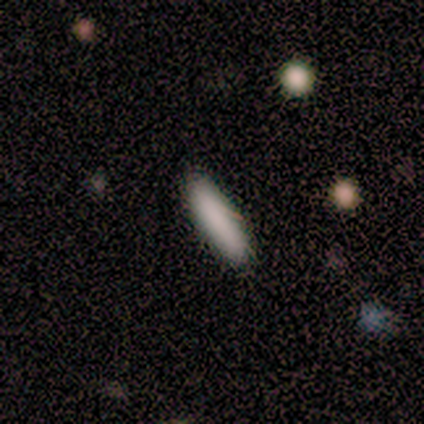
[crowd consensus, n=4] smooth-or-featured: smooth: 100% | featured or disk: 0% | star or artifact: 0%
  how-rounded: cigar-shaped: 75% | in between: 25% | round: 0%
  merging: none: 100% | minor disturbance: 0% | major disturbance: 0% | merger: 0%